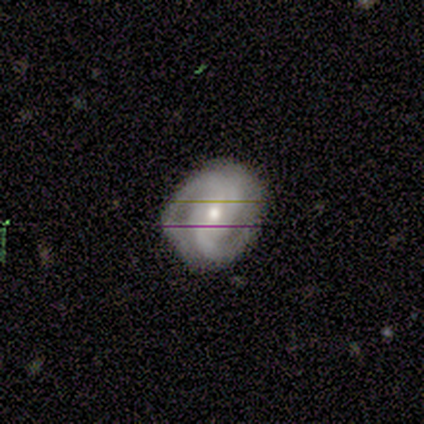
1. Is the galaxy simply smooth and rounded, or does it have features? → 88% featured or disk, 12% star or artifact, 0% smooth.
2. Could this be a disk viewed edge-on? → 100% no, 0% yes.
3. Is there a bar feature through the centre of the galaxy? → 64% no, 27% weak, 9% strong.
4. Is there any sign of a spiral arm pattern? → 100% yes, 0% no.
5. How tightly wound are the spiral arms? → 50% tight, 27% medium, 23% loose.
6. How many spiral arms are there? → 91% 2, 9% can't tell, 0% 1, 0% 3, 0% 4, 0% more than 4.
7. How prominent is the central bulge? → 50% moderate, 45% small, 5% large, 0% dominant, 0% none.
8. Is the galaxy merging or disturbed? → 82% none, 18% minor disturbance, 0% major disturbance, 0% merger.